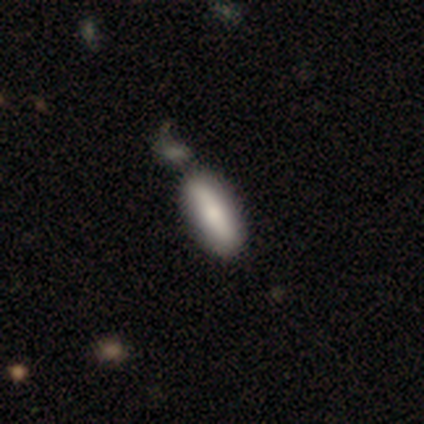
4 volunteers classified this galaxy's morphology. Overall: smooth (50%, tied with featured or disk). How rounded: in between (100%). Merging: none (75%).